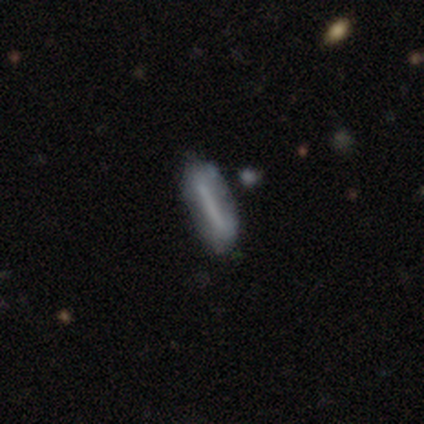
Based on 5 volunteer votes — Smooth or featured: smooth — 60% (featured or disk — 40%)
How rounded: cigar-shaped — 67% (in between — 33%)
Merging: none — 80% (merger — 20%)